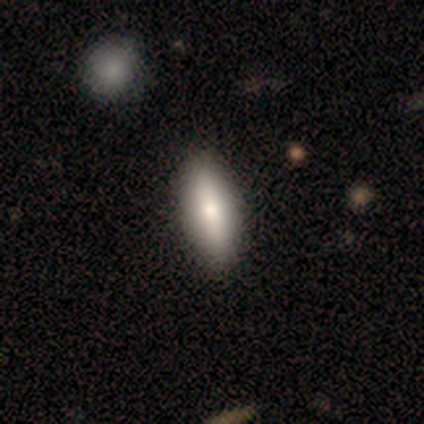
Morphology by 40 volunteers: Smooth or featured? 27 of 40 (68%) said smooth. How rounded? 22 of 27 (81%) said in between. Merging? 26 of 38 (68%) said none.